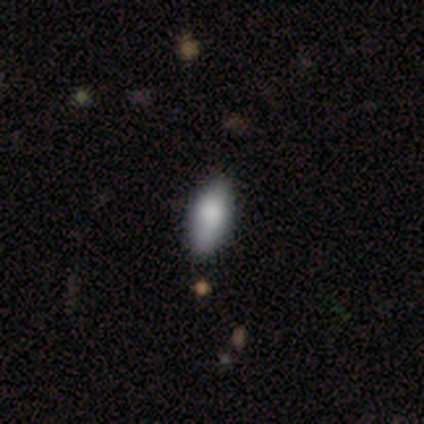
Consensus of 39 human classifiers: Overall: smooth (87%). How rounded: in between (94%). Merging: none (56%).